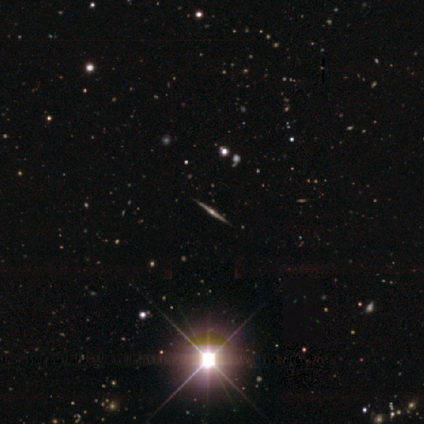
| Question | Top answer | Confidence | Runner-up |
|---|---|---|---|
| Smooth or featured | featured or disk | 64% | star or artifact (29%) |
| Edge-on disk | yes | 100% | — |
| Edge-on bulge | rounded | 86% | boxy (7%) |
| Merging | none | 94% | minor disturbance (3%) |